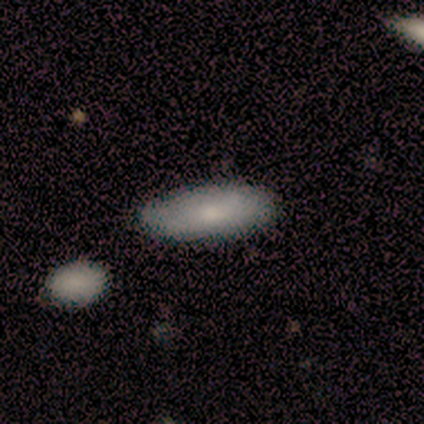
Smooth or featured? smooth (100%)
How rounded? in between (80%)
Merging? none (40%, tied with minor disturbance)